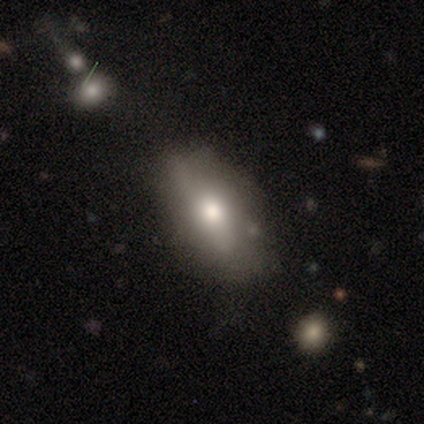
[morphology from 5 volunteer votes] smooth 60%, featured or disk 20%, star or artifact 20%. Down the decision tree: how rounded — in between (100%); merging — none (50%, tied with minor disturbance).